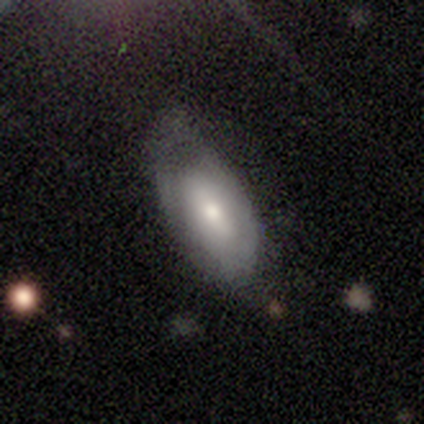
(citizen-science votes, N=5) This is clearly a featured or disk galaxy (80%). It is likely not viewed edge-on (75%). Bar: likely no (67%). Spiral arm pattern: likely yes (67%). Spiral arm count: possibly 1 (50%, tied with 2). Spiral winding: clearly medium (100%). Central bulge: clearly moderate (100%). Merging: marginally none (40%, tied with minor disturbance).